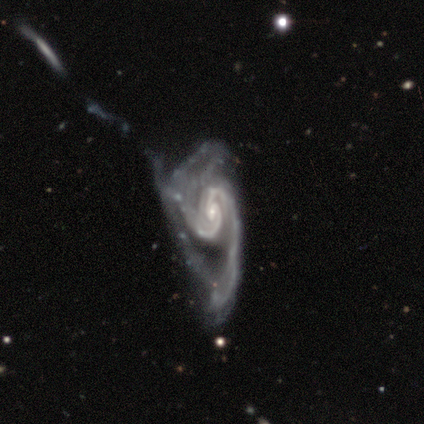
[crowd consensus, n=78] Smooth or featured: featured or disk — 99% (smooth — 1%)
Edge-on disk: no — 95% (yes — 5%)
Bar: no — 44% (weak — 42%)
Spiral arms: yes — 100%
Spiral winding: medium — 37% (tight — 34%)
Spiral arm count: 2 — 73% (can't tell — 15%)
Bulge size: small — 73% (moderate — 25%)
Merging: major disturbance — 41% (minor disturbance — 5%)